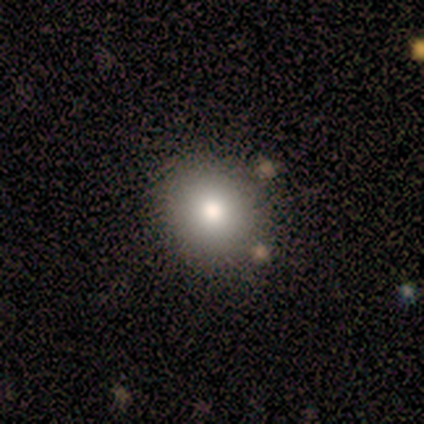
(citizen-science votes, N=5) Q: Smooth or featured?
A: smooth (80%); runner-up: star or artifact (20%)
Q: How rounded?
A: round (75%); runner-up: in between (25%)
Q: Merging?
A: none (100%)